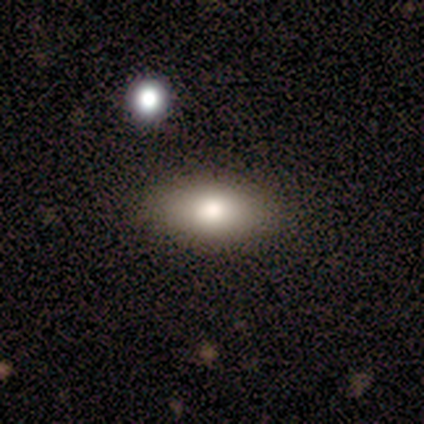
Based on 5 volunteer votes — A smooth galaxy with no disk features (80%) that is in between round and cigar-shaped (100%).

Vote fractions:
- Smooth or featured? smooth: 80% / star or artifact: 20% / featured or disk: 0%
- How rounded? in between: 100% / round: 0% / cigar-shaped: 0%
- Merging? none: 75% / minor disturbance: 25% / major disturbance: 0% / merger: 0%